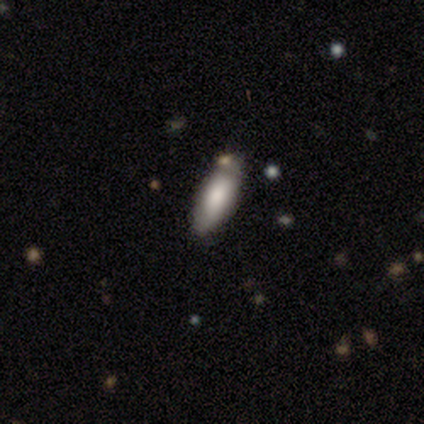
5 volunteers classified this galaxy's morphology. A smooth galaxy with no disk features (100%) that is in between round and cigar-shaped (60%). Merging: minor disturbance (80%).